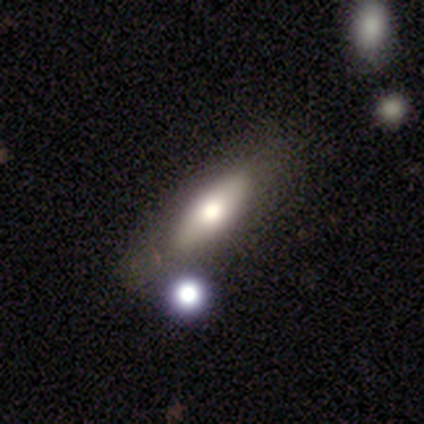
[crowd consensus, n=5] Smooth or featured? 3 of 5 (60%) said smooth. How rounded? 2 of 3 (67%) said in between. Merging? 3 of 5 (60%) said minor disturbance.